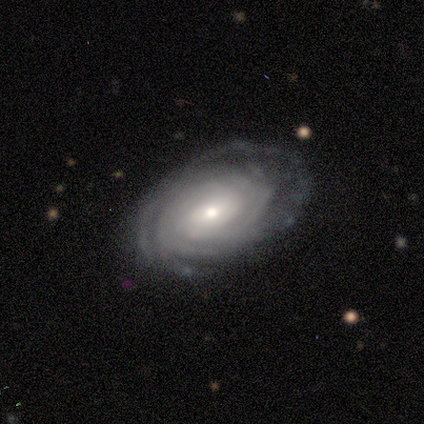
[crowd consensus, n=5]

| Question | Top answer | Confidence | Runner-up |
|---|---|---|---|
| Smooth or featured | featured or disk | 100% | — |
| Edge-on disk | no | 100% | — |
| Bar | no | 60% | strong (20%) |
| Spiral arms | yes | 100% | — |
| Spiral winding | tight | 80% | medium (20%) |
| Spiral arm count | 4 | 60% | can't tell (40%) |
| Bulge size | small | 60% | moderate (40%) |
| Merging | none | 60% | minor disturbance (20%) |